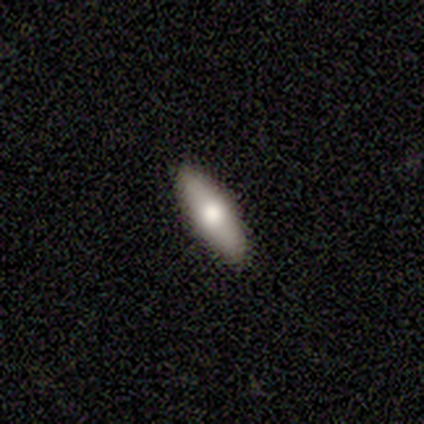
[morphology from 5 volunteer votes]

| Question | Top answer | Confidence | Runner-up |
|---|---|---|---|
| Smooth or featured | smooth | 80% | featured or disk (20%) |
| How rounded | in between | 75% | cigar-shaped (25%) |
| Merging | none | 100% | — |